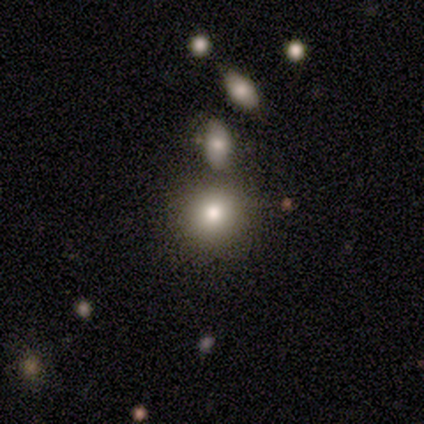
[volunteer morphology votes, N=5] Smooth or featured: smooth — 80% (featured or disk — 20%)
How rounded: round — 75% (in between — 25%)
Merging: none — 80% (merger — 20%)